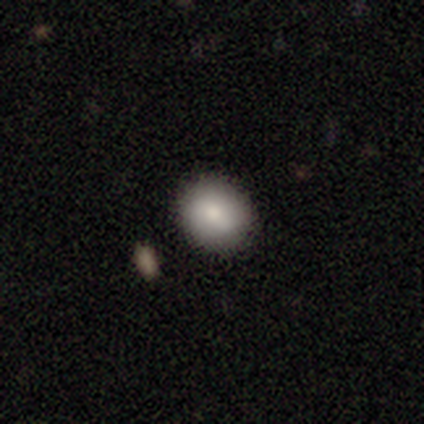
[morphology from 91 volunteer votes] smooth_or_featured: smooth (p=0.86) [alt: star or artifact p=0.09]
how_rounded: round (p=0.67) [alt: in between p=0.33]
merging: none (p=0.93) [alt: minor disturbance p=0.04]